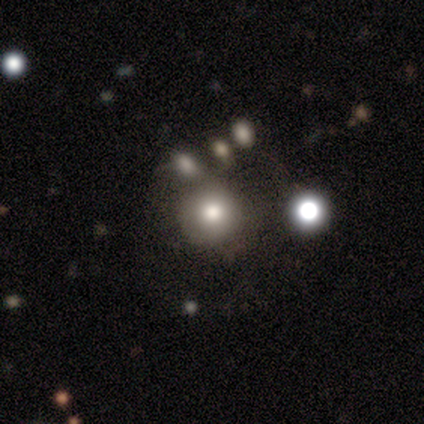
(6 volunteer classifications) Smooth or featured? smooth (33%, tied with featured or disk and star or artifact)
How rounded? round (100%)
Merging? merger (50%)